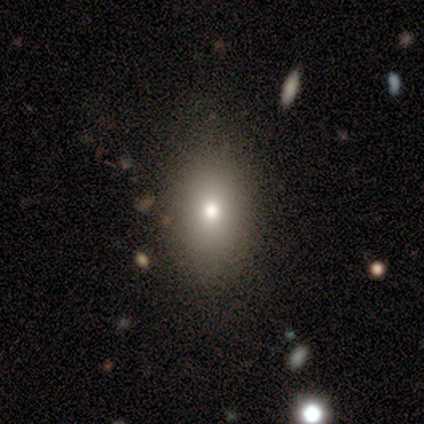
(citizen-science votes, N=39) Q: Smooth or featured?
A: smooth (72%); runner-up: star or artifact (21%)
Q: How rounded?
A: in between (64%); runner-up: round (29%)
Q: Merging?
A: none (90%); runner-up: minor disturbance (6%)